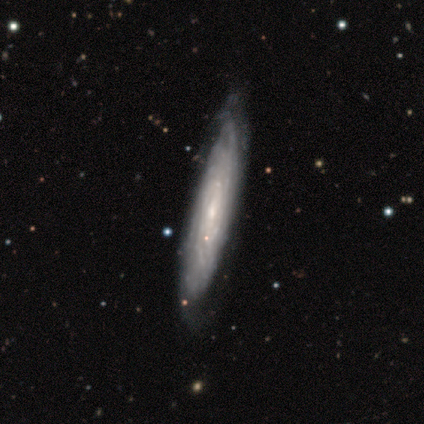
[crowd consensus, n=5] Q: Smooth or featured?
A: featured or disk (100%)
Q: Edge-on disk?
A: no (60%); runner-up: yes (40%)
Q: Bar?
A: no (67%); runner-up: weak (33%)
Q: Spiral arms?
A: yes (67%); runner-up: no (33%)
Q: Spiral winding?
A: medium (50%); tied with: loose (50%)
Q: Spiral arm count?
A: 3 (50%); tied with: can't tell (50%)
Q: Bulge size?
A: moderate (67%); runner-up: small (33%)
Q: Merging?
A: none (80%); runner-up: minor disturbance (20%)